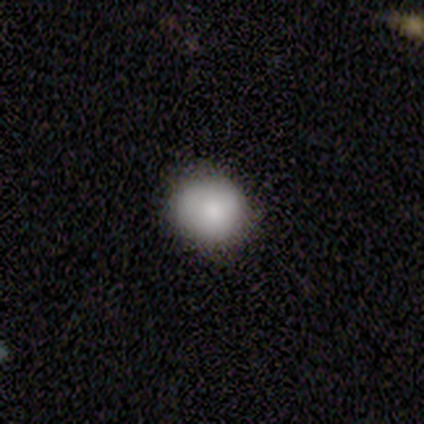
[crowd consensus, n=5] This is clearly a smooth galaxy (80%). How rounded: clearly round (100%). Merging: likely minor disturbance (60%).